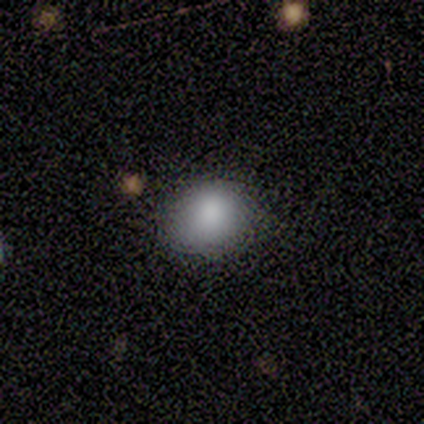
Q: Smooth or featured?
A: smooth (100%)
Q: How rounded?
A: round (100%)
Q: Merging?
A: none (80%); runner-up: minor disturbance (20%)